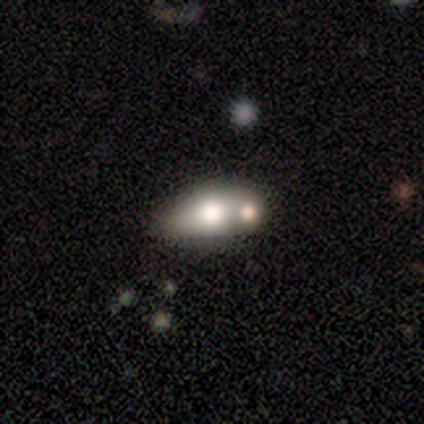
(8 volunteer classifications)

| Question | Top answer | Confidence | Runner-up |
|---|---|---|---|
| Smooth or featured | smooth | 50% | tied: featured or disk (50%) |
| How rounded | in between | 75% | cigar-shaped (25%) |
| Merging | merger | 62% | none (38%) |